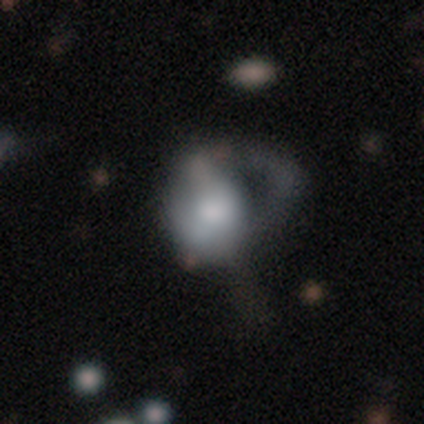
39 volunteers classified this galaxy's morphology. Smooth or featured? 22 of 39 (56%) said smooth. How rounded? 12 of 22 (55%) said in between. Merging? 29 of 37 (78%) said major disturbance.